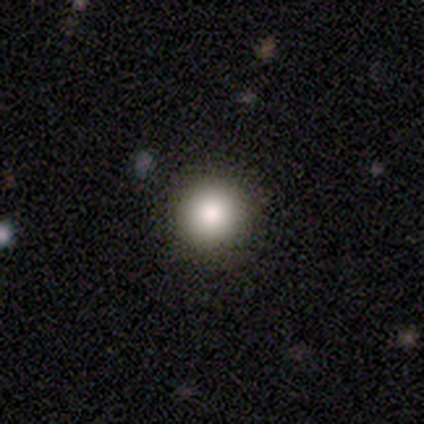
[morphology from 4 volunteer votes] A smooth galaxy with no disk features (100%) that is round (100%).

Vote fractions:
- Smooth or featured? smooth: 100% / featured or disk: 0% / star or artifact: 0%
- How rounded? round: 100% / in between: 0% / cigar-shaped: 0%
- Merging? none: 100% / minor disturbance: 0% / major disturbance: 0% / merger: 0%